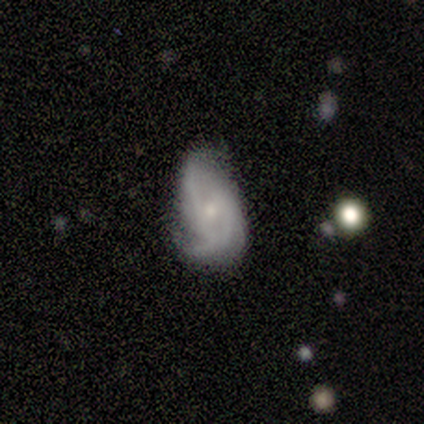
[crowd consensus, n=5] smooth_or_featured: featured or disk (p=0.60) [alt: smooth p=0.40]
disk_edge_on: no (p=1.00)
bar: no (p=1.00)
has_spiral_arms: yes (p=0.67) [alt: no p=0.33]
spiral_winding: tight (p=0.50) [tied with: medium p=0.50]
spiral_arm_count: 2 (p=0.50) [tied with: 3 p=0.50]
bulge_size: small (p=0.67) [alt: moderate p=0.33]
merging: minor disturbance (p=0.80) [alt: none p=0.20]